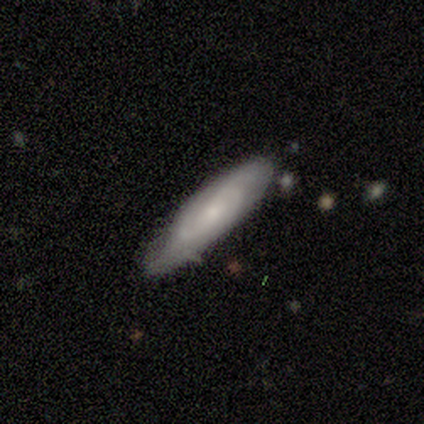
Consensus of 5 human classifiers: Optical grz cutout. It shows a featured or disk galaxy (80%) with no bar (75%), 2 (67%) tight (100%) spiral arms (75%) and a moderate central bulge (50%, tied with small). Merging: none (80%).